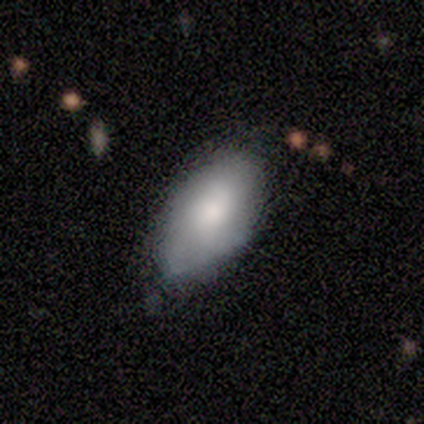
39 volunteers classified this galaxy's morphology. Overall: smooth (74%). How rounded: in between (93%). Merging: none (53%; minor disturbance 39%).